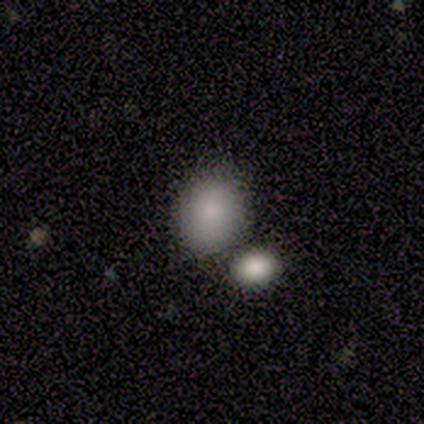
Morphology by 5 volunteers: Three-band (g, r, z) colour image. It shows a smooth galaxy with no disk features (80%) that is in between round and cigar-shaped (75%). Merging: none (100%).